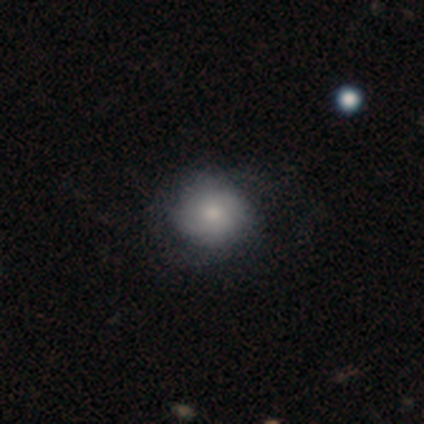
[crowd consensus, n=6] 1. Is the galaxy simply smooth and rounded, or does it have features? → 50% smooth (tied), 50% featured or disk (tied), 0% star or artifact.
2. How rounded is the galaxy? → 100% round, 0% in between, 0% cigar-shaped.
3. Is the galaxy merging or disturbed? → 50% minor disturbance, 33% none, 17% major disturbance, 0% merger.